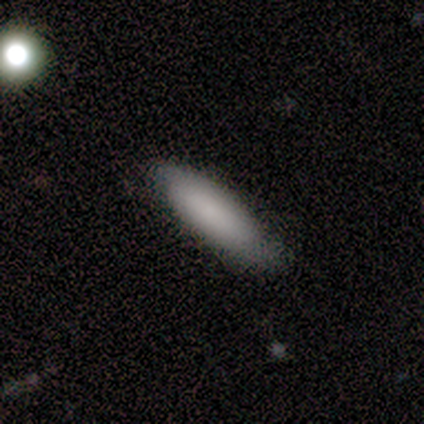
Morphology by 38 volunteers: smooth 76%, featured or disk 13%, star or artifact 11%. Down the decision tree: how rounded — cigar-shaped (59%); merging — none (76%).